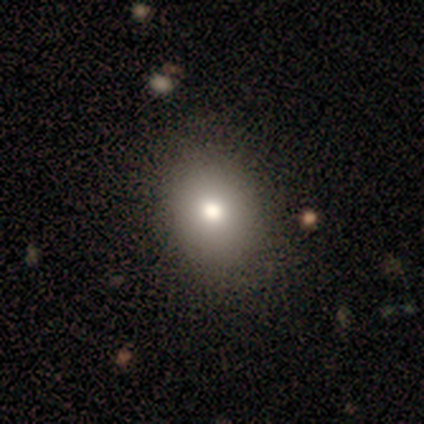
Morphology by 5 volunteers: A smooth galaxy with no disk features (60%) that is in between round and cigar-shaped (67%).

Vote fractions:
- Smooth or featured? smooth: 60% / featured or disk: 40% / star or artifact: 0%
- How rounded? in between: 67% / round: 33% / cigar-shaped: 0%
- Merging? none: 100% / minor disturbance: 0% / major disturbance: 0% / merger: 0%